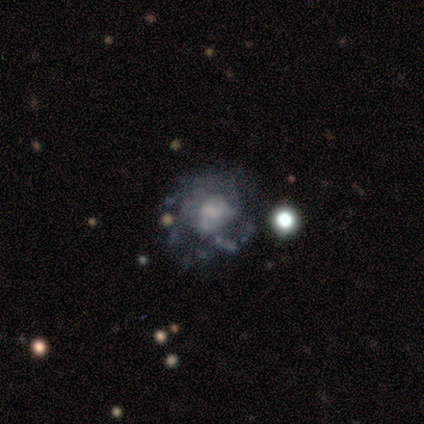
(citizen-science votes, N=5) Volunteers were most divided on "spiral arms" (2-way tie): yes: 50%, no: 50%; "spiral winding" (2-way tie): medium: 50%, loose: 50%, tight: 0%; "merging" (2-way tie): none: 40%, major disturbance: 40%, minor disturbance: 20%, merger: 0%. More confident: edge-on disk — no (100%); spiral arm count — can't tell (100%); smooth or featured — featured or disk (80%); bar — no (75%); bulge size — none (50%).